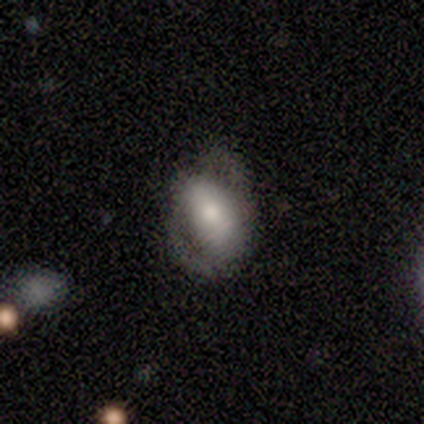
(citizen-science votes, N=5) A featured or disk galaxy (60%) with no bar (67%), no spiral arms (100%) and a moderate central bulge (67%). Merging: none (40%, tied with major disturbance).